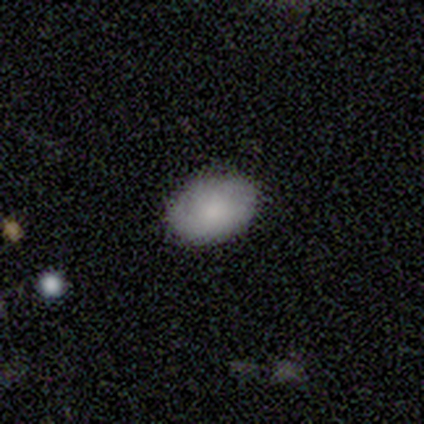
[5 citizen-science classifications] Volunteers were most divided on "smooth or featured": smooth: 80%, featured or disk: 20%, star or artifact: 0%. More confident: how rounded — in between (100%); merging — none (100%).